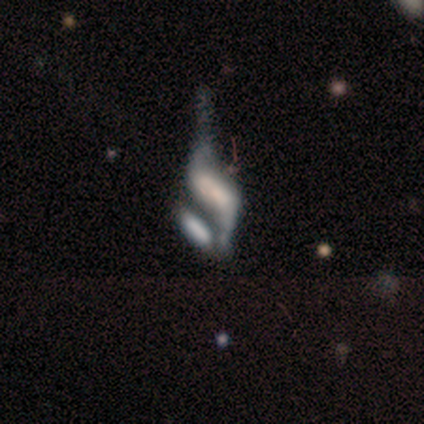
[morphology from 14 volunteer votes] Q: Smooth or featured?
A: featured or disk (64%); runner-up: smooth (29%)
Q: Edge-on disk?
A: no (100%)
Q: Bar?
A: no (56%); runner-up: strong (33%)
Q: Spiral arms?
A: yes (67%); runner-up: no (33%)
Q: Spiral winding?
A: loose (100%)
Q: Spiral arm count?
A: 2 (83%); runner-up: can't tell (17%)
Q: Bulge size?
A: none (56%); runner-up: large (22%)
Q: Merging?
A: merger (62%); runner-up: major disturbance (23%)